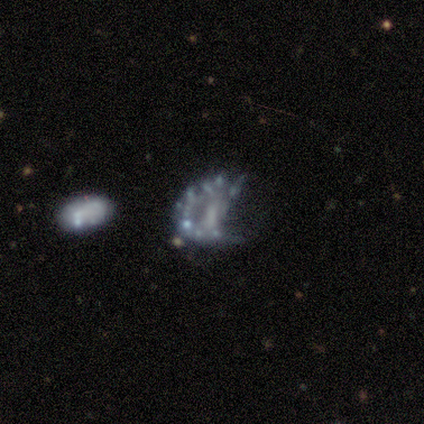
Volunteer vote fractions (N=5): Overall: featured or disk (80%). Edge-on disk: no (100%). Bar: no (75%). Spiral arms: no (100%). Bulge size: small (50%, tied with none). Merging: major disturbance (80%).